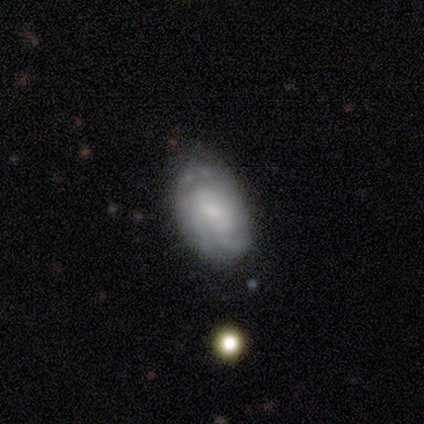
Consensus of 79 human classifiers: A featured or disk galaxy (58%) with no bar (59%), medium (47%) spiral arms (78%) and a small central bulge (57%). Merging: none (39%).